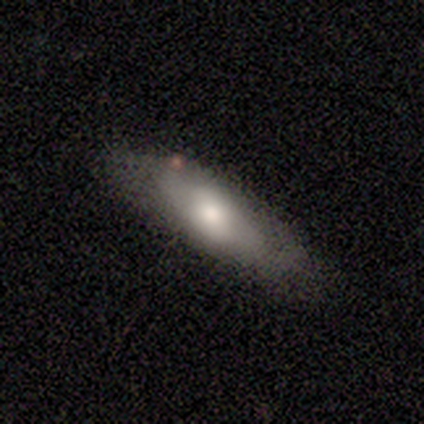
Morphology: type=smooth (66%); roundness=cigar-shaped (48%); merging=none (57%).